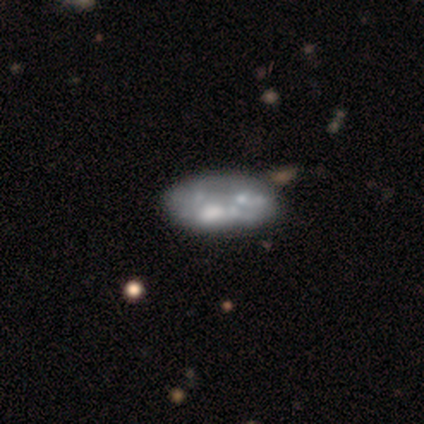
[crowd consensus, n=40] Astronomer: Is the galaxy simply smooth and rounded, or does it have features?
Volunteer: featured or disk — 65%.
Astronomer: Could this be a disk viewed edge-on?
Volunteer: no — 100%.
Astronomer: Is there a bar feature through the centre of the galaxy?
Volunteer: no — 92%.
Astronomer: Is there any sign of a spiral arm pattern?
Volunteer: no — 92%.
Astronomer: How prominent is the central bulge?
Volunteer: none — 54%.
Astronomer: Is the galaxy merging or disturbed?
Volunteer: none — 33% (runner-up: merger, 28%).